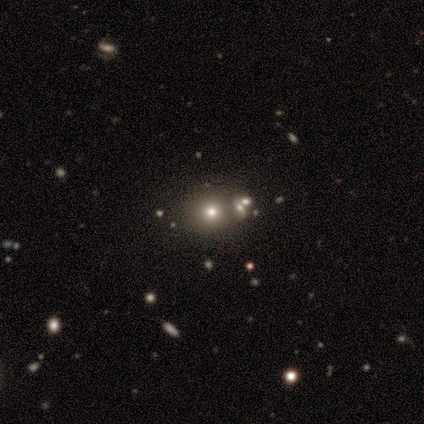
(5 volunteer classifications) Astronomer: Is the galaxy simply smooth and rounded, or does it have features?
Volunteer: smooth — 80%.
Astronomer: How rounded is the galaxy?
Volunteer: round — 100%.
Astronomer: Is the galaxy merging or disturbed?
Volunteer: none — 40%, tied with minor disturbance at 40%.